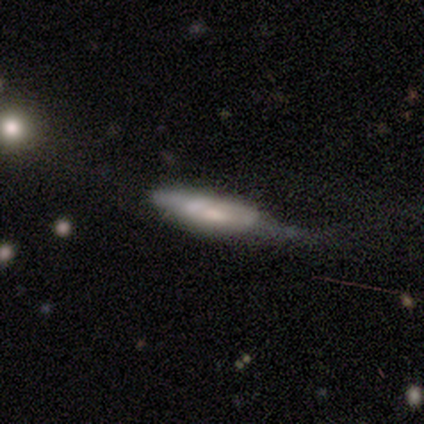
A featured or disk galaxy (60%) with no bar (100%), no spiral arms (100%) and a large central bulge (33%, tied with moderate and small).

Vote fractions:
- Smooth or featured? featured or disk: 60% / smooth: 40% / star or artifact: 0%
- Edge-on disk? no: 100% / yes: 0%
- Bar? no: 100% / strong: 0% / weak: 0%
- Spiral arms? no: 100% / yes: 0%
- Bulge size? large: 33% (tied) / moderate: 33% (tied) / small: 33% (tied) / dominant: 0% / none: 0%
- Merging? merger: 40% / none: 20% / minor disturbance: 20% / major disturbance: 20%